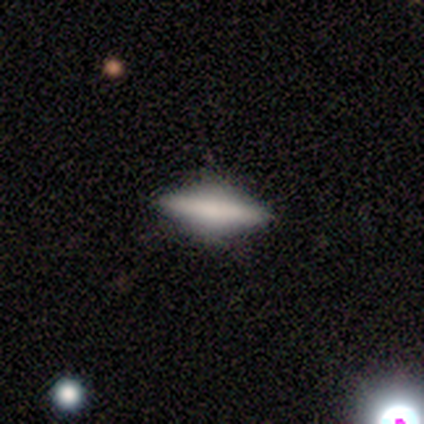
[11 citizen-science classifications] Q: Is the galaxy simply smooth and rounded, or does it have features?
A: smooth — 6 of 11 (55%).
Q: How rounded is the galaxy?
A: in between — 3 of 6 (50%).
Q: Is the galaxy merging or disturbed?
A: none — 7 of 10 (70%).